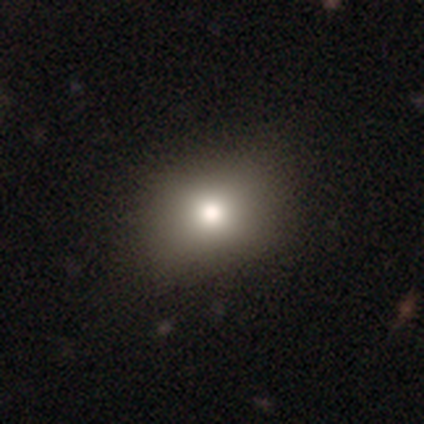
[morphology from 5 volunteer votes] This appears to be a featured or disk galaxy (60%) with no bar (100%), no spiral arms (100%) and a moderate central bulge (100%). Merging: none (100%).